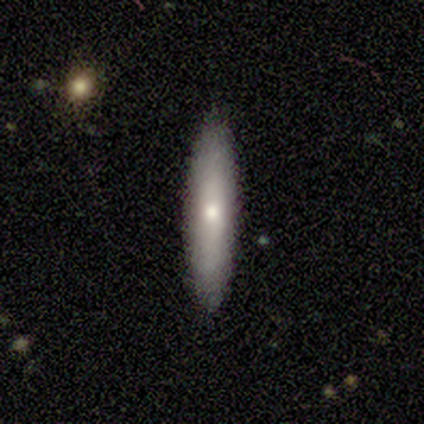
smooth 60%, featured or disk 40%, star or artifact 0%. Down the decision tree: how rounded — in between (67%); merging — none (80%).